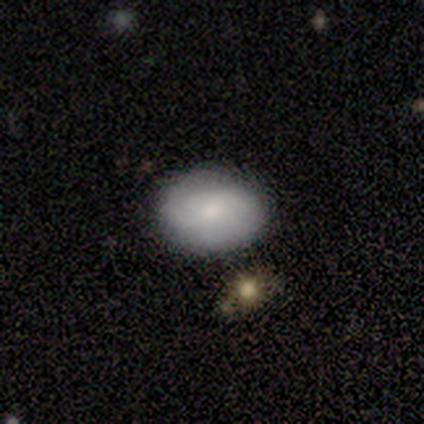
Morphology: type=smooth (60%); roundness=in between (100%); merging=none (100%).